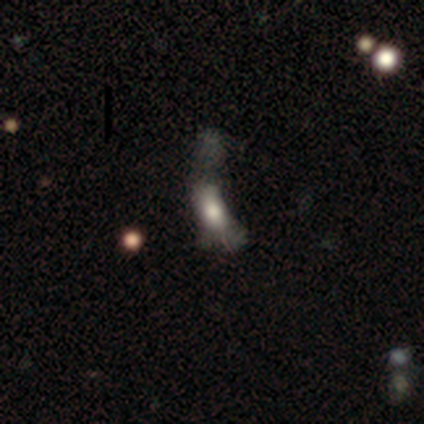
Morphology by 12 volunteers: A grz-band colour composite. It shows a smooth galaxy with no disk features (42%, tied with featured or disk) that is in between round and cigar-shaped (60%). Merging: major disturbance (80%).